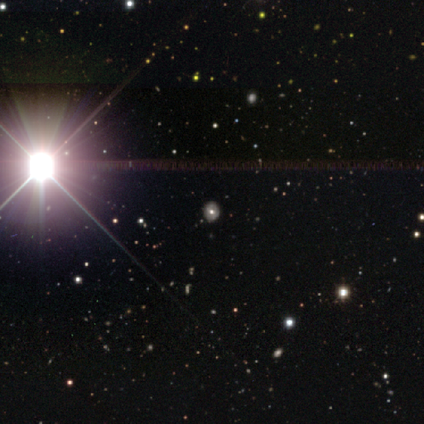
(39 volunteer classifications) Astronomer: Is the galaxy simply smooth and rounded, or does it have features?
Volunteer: star or artifact — 64%.